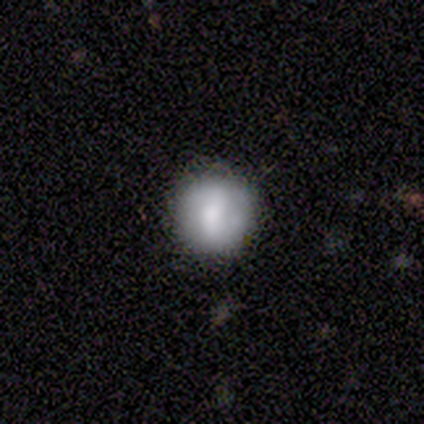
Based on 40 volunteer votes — Morphology: type=smooth (65%); roundness=round (100%); merging=none (89%).